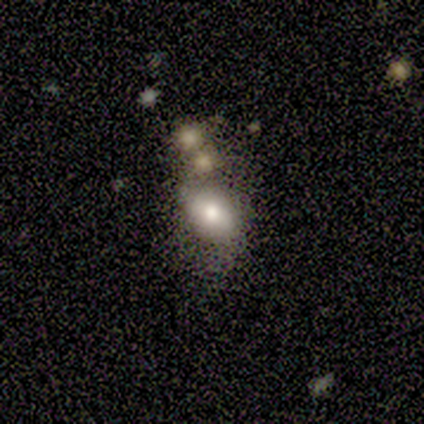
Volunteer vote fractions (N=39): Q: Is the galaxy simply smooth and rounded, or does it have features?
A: smooth — 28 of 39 (72%).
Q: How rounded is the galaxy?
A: in between — 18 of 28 (64%).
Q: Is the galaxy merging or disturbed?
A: none — 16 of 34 (47%).